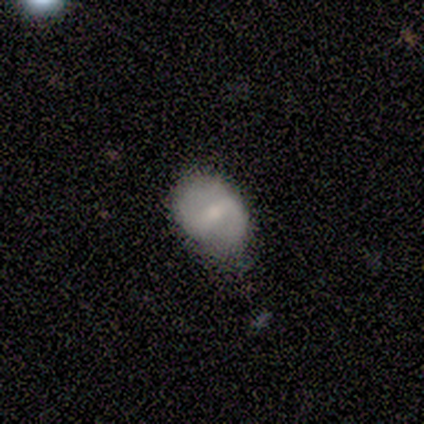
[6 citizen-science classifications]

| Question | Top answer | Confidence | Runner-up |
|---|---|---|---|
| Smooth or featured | smooth | 50% | tied: featured or disk (50%) |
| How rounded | in between | 67% | round (33%) |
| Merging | minor disturbance | 83% | none (17%) |